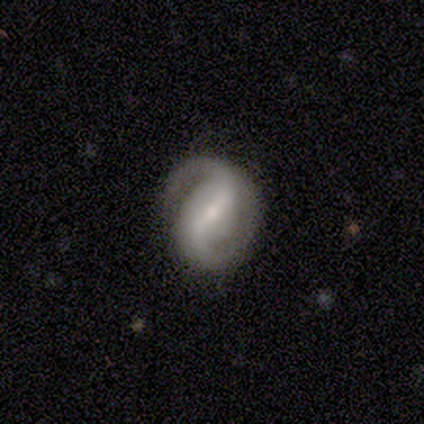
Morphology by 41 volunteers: This is clearly a featured or disk galaxy (88%). It is clearly not viewed edge-on (94%). Bar: possibly strong (53%). Spiral arm pattern: clearly yes (94%). Spiral arm count: clearly 2 (97%). Spiral winding: marginally medium (44%). Central bulge: likely small (62%). Merging: likely none (71%).